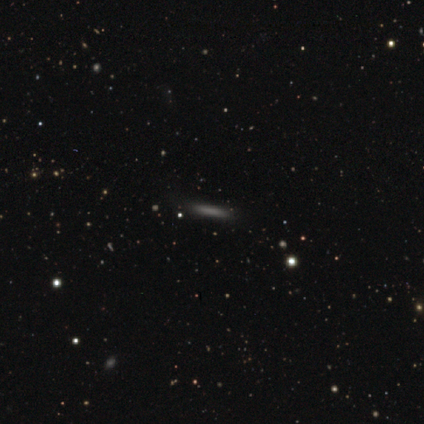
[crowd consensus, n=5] Volunteers were most divided on "smooth or featured": smooth: 80%, star or artifact: 20%, featured or disk: 0%. More confident: how rounded — cigar-shaped (100%); merging — none (100%).